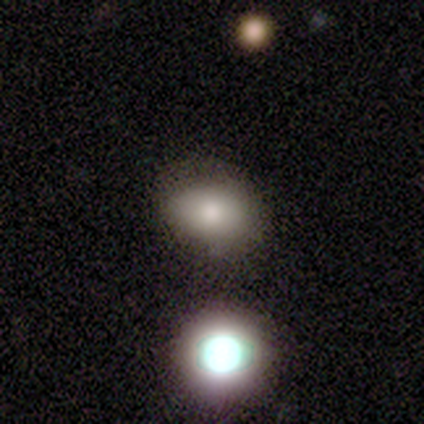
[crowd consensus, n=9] Smooth or featured: smooth — 78% (featured or disk — 11%)
How rounded: in between — 100%
Merging: none — 75% (minor disturbance — 25%)